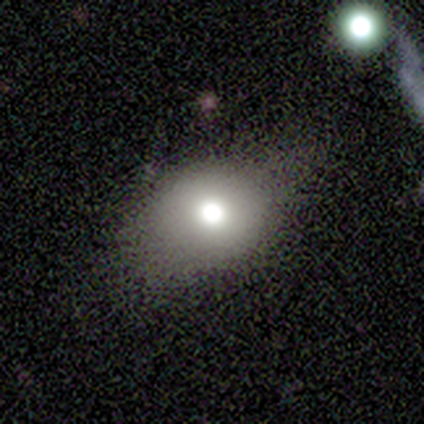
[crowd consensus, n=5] This appears to be a smooth galaxy with no disk features (60%) that is round (67%). Merging: minor disturbance (60%).